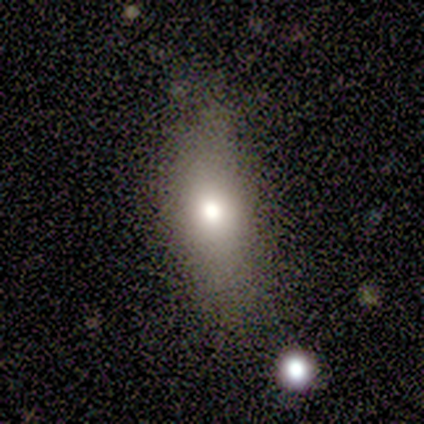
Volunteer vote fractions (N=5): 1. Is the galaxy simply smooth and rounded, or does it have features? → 60% smooth, 20% featured or disk, 20% star or artifact.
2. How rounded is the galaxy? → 67% round, 33% in between, 0% cigar-shaped.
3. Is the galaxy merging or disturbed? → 75% none, 25% minor disturbance, 0% major disturbance, 0% merger.